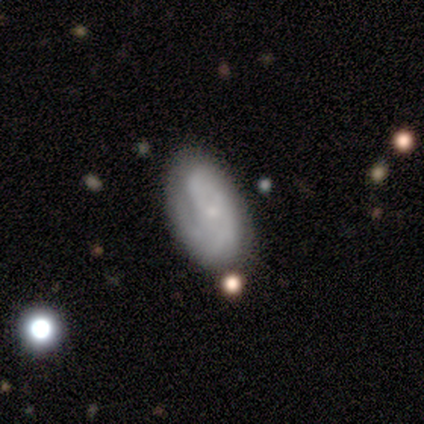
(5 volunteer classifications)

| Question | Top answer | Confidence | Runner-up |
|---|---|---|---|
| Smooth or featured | featured or disk | 80% | smooth (20%) |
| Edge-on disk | no | 100% | — |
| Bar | no | 75% | weak (25%) |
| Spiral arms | yes | 100% | — |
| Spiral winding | tight | 75% | loose (25%) |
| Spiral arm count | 2 | 50% | 4 (25%) |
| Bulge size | small | 75% | moderate (25%) |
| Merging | none | 60% | minor disturbance (40%) |